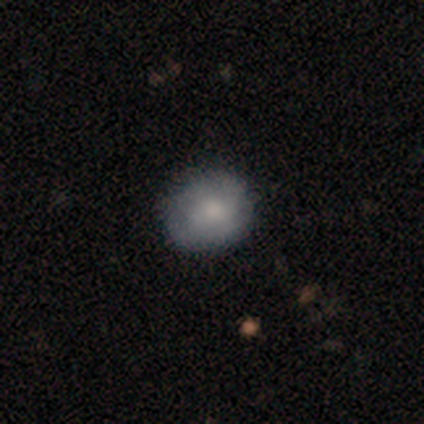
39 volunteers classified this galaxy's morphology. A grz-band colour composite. It shows a smooth galaxy with no disk features (64%) that is round (68%). Merging: none (74%).